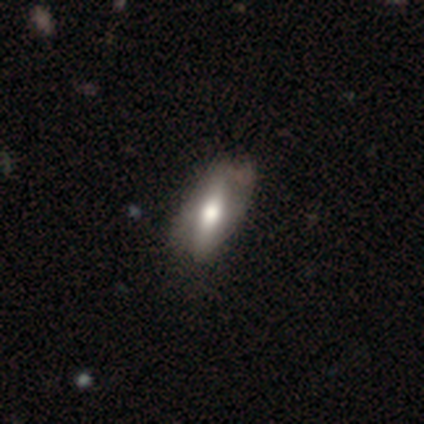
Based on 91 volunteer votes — smooth 53%, featured or disk 43%, star or artifact 4%. Down the decision tree: how rounded — in between (71%); merging — none (67%).